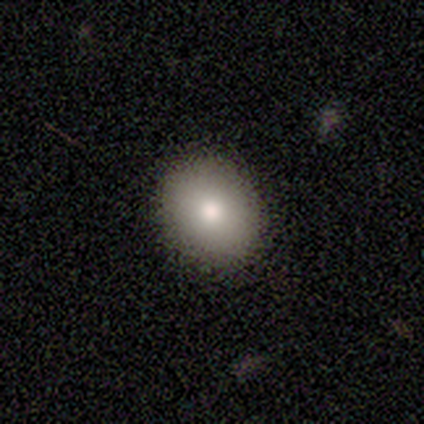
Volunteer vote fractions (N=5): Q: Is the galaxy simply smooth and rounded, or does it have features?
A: smooth — 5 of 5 (100%).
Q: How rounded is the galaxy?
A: round — 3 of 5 (60%).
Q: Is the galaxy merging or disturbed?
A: none — 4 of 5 (80%).